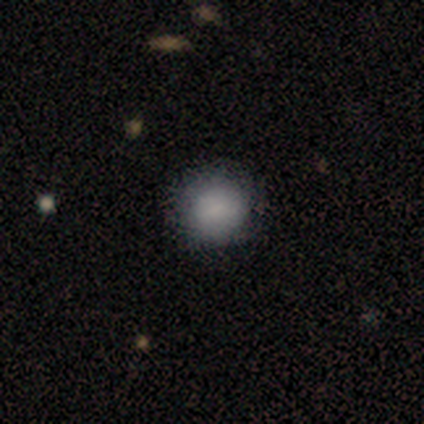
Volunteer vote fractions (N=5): A smooth galaxy with no disk features (80%) that is round (100%).

Vote fractions:
- Smooth or featured? smooth: 80% / featured or disk: 20% / star or artifact: 0%
- How rounded? round: 100% / in between: 0% / cigar-shaped: 0%
- Merging? none: 80% / merger: 20% / minor disturbance: 0% / major disturbance: 0%